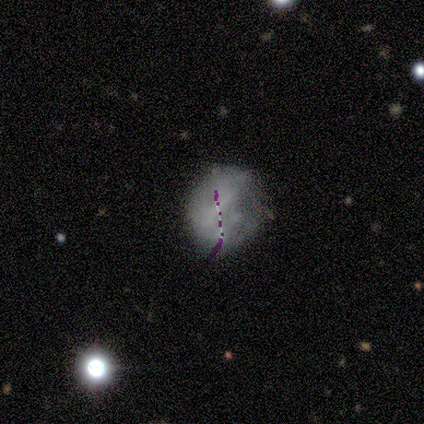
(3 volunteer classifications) smooth_or_featured: star or artifact (p=0.67) [alt: smooth p=0.33]